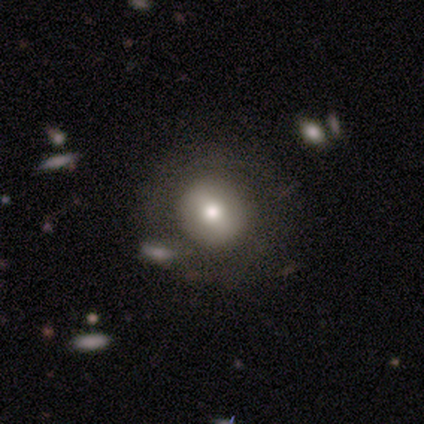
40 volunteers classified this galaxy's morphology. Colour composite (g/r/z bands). It shows a smooth galaxy with no disk features (57%) that is round (91%). Merging: none (48%).